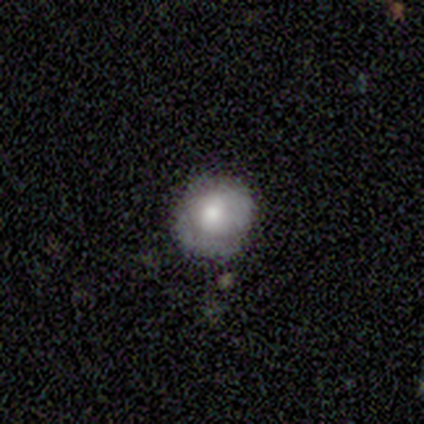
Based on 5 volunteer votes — Morphology: type=smooth (100%); roundness=round (80%); merging=none (60%).